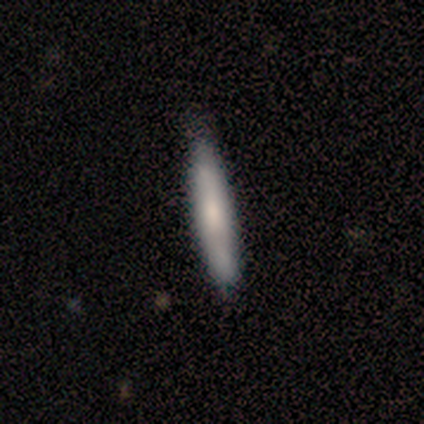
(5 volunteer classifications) Smooth or featured: smooth — 100%
How rounded: cigar-shaped — 80% (in between — 20%)
Merging: none — 80% (minor disturbance — 20%)